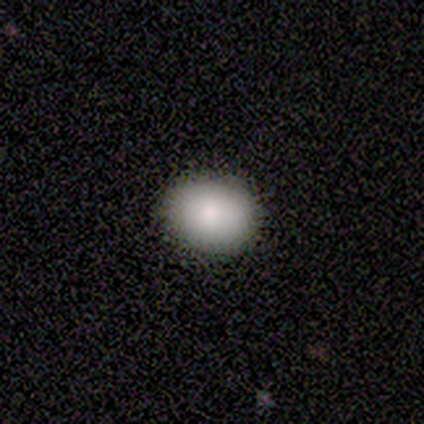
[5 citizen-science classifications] Smooth or featured: smooth — 80% (star or artifact — 20%)
How rounded: in between — 75% (round — 25%)
Merging: none — 75% (minor disturbance — 25%)